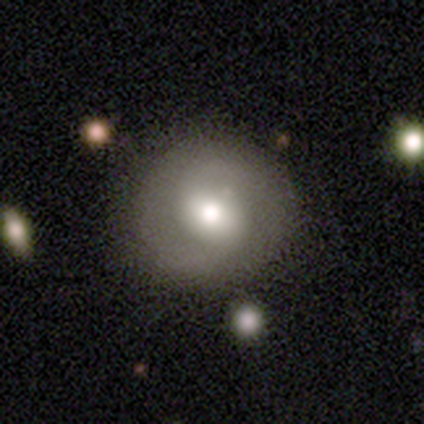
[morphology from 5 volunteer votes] This appears to be a featured or disk galaxy (60%) with a strong bar (33%, tied with weak and no), 2 (67%) tight (67%) spiral arms (100%) and a large central bulge (67%). Merging: none (100%).